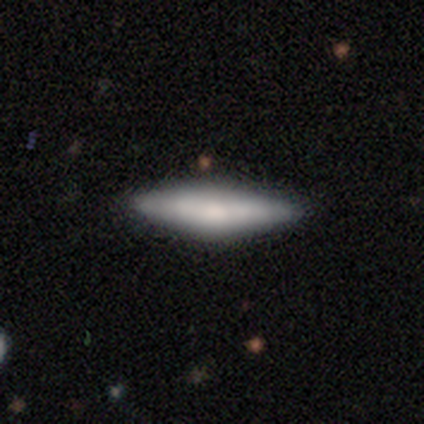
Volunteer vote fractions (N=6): Q: Smooth or featured?
A: smooth (67%); runner-up: featured or disk (33%)
Q: How rounded?
A: in between (50%); tied with: cigar-shaped (50%)
Q: Merging?
A: none (100%)